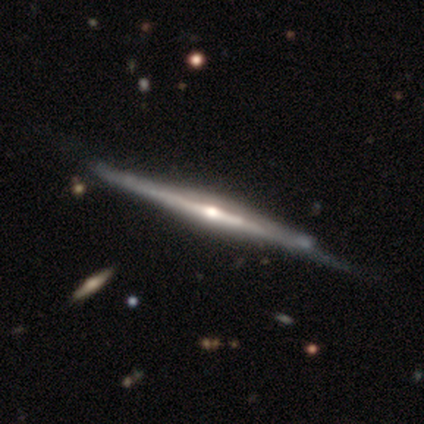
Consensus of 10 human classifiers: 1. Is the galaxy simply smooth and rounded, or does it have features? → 90% featured or disk, 10% star or artifact, 0% smooth.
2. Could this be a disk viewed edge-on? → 89% yes, 11% no.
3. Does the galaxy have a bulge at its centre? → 88% rounded, 12% none, 0% boxy.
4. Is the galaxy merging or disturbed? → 56% none, 33% minor disturbance, 11% major disturbance, 0% merger.